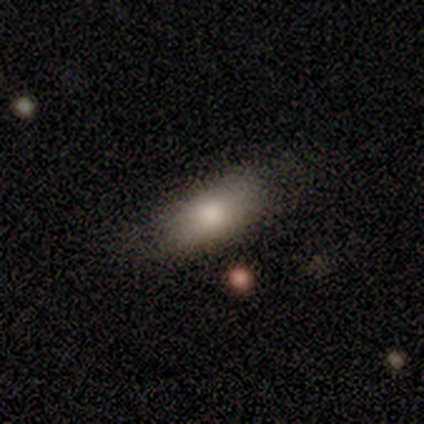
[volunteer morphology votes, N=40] Smooth or featured?
  - smooth: 72% *
  - star or artifact: 18%
  - featured or disk: 10%
How rounded?
  - in between: 83% *
  - round: 10%
  - cigar-shaped: 7%
Merging?
  - none: 82% *
  - minor disturbance: 15%
  - major disturbance: 3%
  - merger: 0%